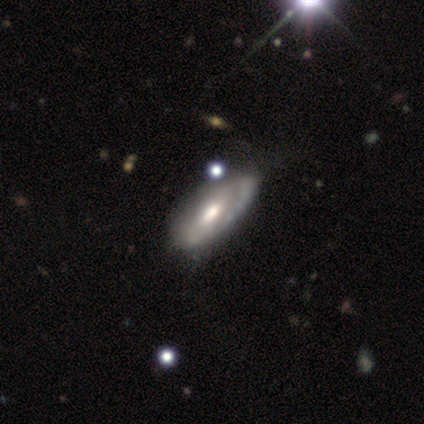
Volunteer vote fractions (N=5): A featured or disk galaxy (80%) with no bar (100%), 2 (50%, tied with can't tell) tight (50%, tied with medium) spiral arms (50%, tied with no) and a moderate central bulge (100%).

Vote fractions:
- Smooth or featured? featured or disk: 80% / star or artifact: 20% / smooth: 0%
- Edge-on disk? no: 100% / yes: 0%
- Bar? no: 100% / strong: 0% / weak: 0%
- Spiral arms? yes: 50% (tied) / no: 50% (tied)
- Spiral winding? tight: 50% (tied) / medium: 50% (tied) / loose: 0%
- Spiral arm count? 2: 50% (tied) / can't tell: 50% (tied) / 1: 0% / 3: 0% / 4: 0% / more than 4: 0%
- Bulge size? moderate: 100% / dominant: 0% / large: 0% / small: 0% / none: 0%
- Merging? none: 75% / minor disturbance: 25% / major disturbance: 0% / merger: 0%